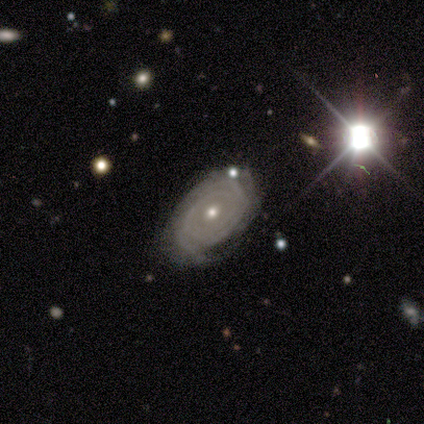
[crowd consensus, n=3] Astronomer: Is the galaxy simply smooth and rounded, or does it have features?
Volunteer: featured or disk — 100%.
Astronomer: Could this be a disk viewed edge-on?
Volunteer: no — 100%.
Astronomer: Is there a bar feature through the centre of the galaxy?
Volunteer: no — 100%.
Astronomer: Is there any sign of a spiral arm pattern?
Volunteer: yes — 67%.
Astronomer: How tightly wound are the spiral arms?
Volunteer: tight — 100%.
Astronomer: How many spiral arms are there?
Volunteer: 4 — 50%, tied with can't tell at 50%.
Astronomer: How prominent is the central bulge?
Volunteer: moderate — 67%.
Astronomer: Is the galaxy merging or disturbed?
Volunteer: none — 67%.